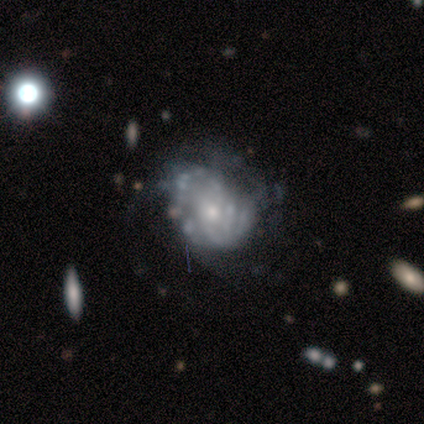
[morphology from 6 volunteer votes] Volunteers were most divided on "bar" (2-way tie): weak: 50%, no: 50%, strong: 0%; "merging" (2-way tie): none: 33%, major disturbance: 33%, minor disturbance: 17%, merger: 17%. More confident: edge-on disk — no (100%); spiral arms — yes (75%); bulge size — small (75%); smooth or featured — featured or disk (67%); spiral winding — loose (67%); spiral arm count — can't tell (67%).